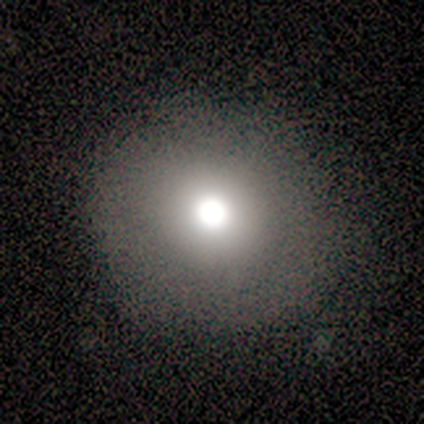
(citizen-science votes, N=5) Smooth or featured?
  - featured or disk: 60% *
  - smooth: 40%
  - star or artifact: 0%
Edge-on disk?
  - no: 100% *
  - yes: 0%
Bar?
  - no: 100% *
  - strong: 0%
  - weak: 0%
Spiral arms?
  - no: 100% *
  - yes: 0%
Bulge size?
  - large: 33% * (tied)
  - moderate: 33% * (tied)
  - none: 33% * (tied)
  - dominant: 0%
  - small: 0%
Merging?
  - none: 80% *
  - minor disturbance: 20%
  - major disturbance: 0%
  - merger: 0%